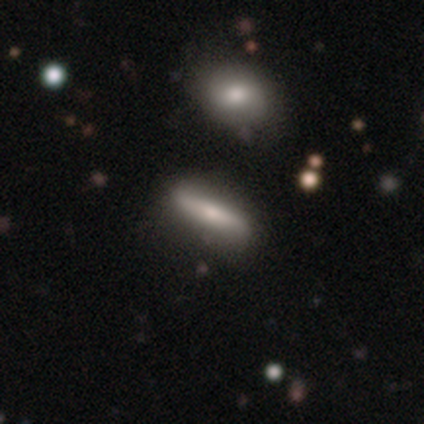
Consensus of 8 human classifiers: featured or disk 62%, smooth 38%, star or artifact 0%. Down the decision tree: edge-on disk — no (60%); bar — strong (67%); spiral arms — yes (67%); spiral arm count — 2 (100%); spiral winding — loose (100%); bulge size — moderate (67%); merging — none (62%).